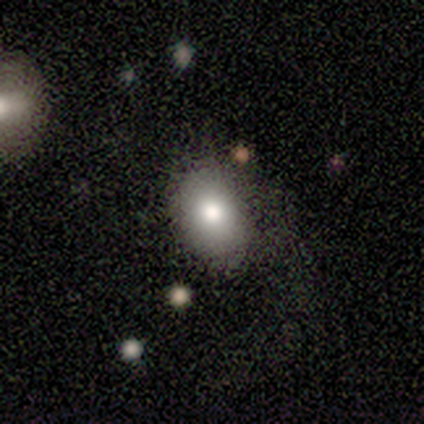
Q: Smooth or featured?
A: smooth (60%); runner-up: featured or disk (20%)
Q: How rounded?
A: in between (100%)
Q: Merging?
A: none (75%); runner-up: major disturbance (25%)